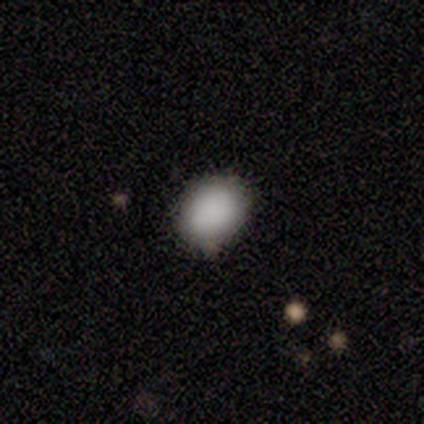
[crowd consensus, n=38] Volunteers were most divided on "how rounded": round: 57%, in between: 43%, cigar-shaped: 0%. More confident: smooth or featured — smooth (97%); merging — none (87%).